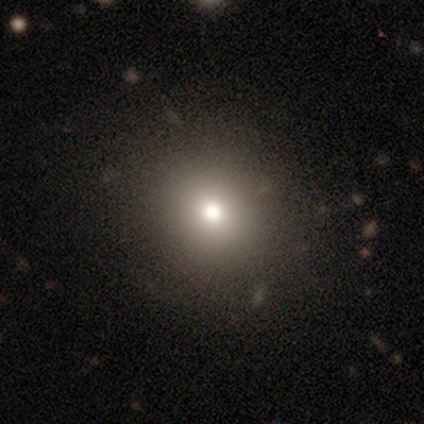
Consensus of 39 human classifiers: This is likely a smooth galaxy (77%). How rounded: clearly round (90%). Merging: likely none (74%).